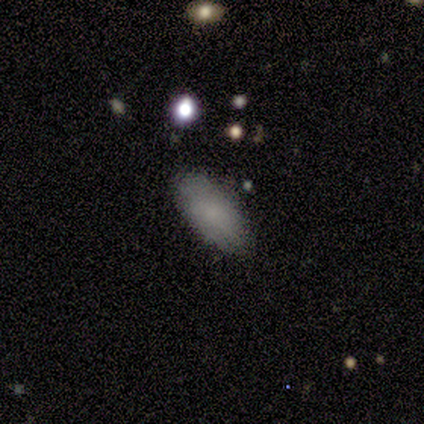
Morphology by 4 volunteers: This is clearly a smooth galaxy (100%). How rounded: clearly in between (100%). Merging: clearly none (100%).